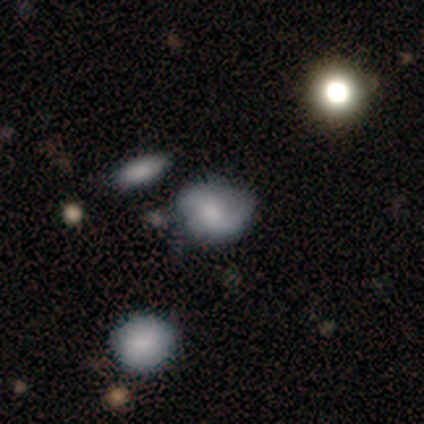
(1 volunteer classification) A smooth galaxy with no disk features (100%) that is round (100%).

Vote fractions:
- Smooth or featured? smooth: 100% / featured or disk: 0% / star or artifact: 0%
- How rounded? round: 100% / in between: 0% / cigar-shaped: 0%
- Merging? none: 100% / minor disturbance: 0% / major disturbance: 0% / merger: 0%